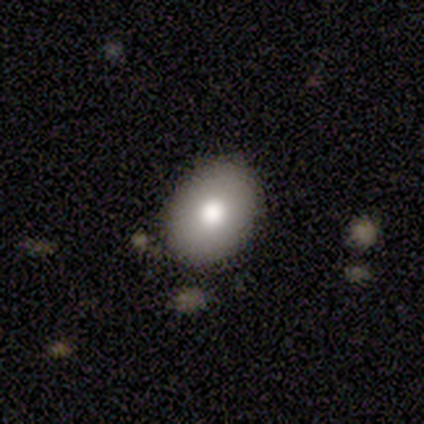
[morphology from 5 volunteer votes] This appears to be a smooth galaxy with no disk features (100%) that is in between round and cigar-shaped (60%). Merging: minor disturbance (60%).